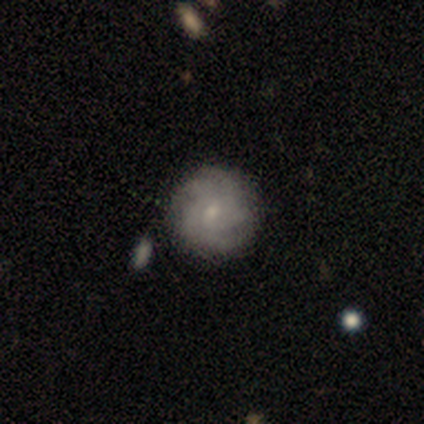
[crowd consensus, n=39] A smooth galaxy with no disk features (49%) that is round (89%).

Vote fractions:
- Smooth or featured? smooth: 49% / featured or disk: 46% / star or artifact: 5%
- How rounded? round: 89% / in between: 11% / cigar-shaped: 0%
- Merging? none: 65% / minor disturbance: 24% / major disturbance: 5% / merger: 5%